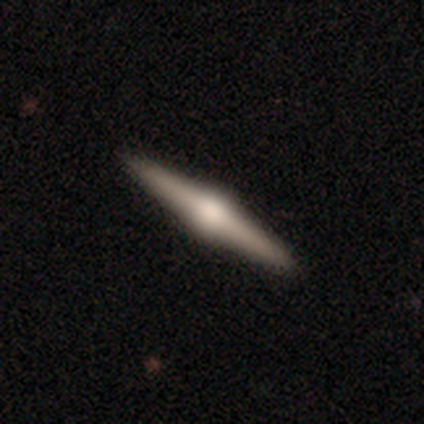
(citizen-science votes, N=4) smooth-or-featured: featured or disk: 75% | smooth: 25% | star or artifact: 0%
  disk-edge-on: yes: 100% | no: 0%
    edge-on-bulge: rounded: 67% | boxy: 33% | none: 0%
  merging: none: 100% | minor disturbance: 0% | major disturbance: 0% | merger: 0%